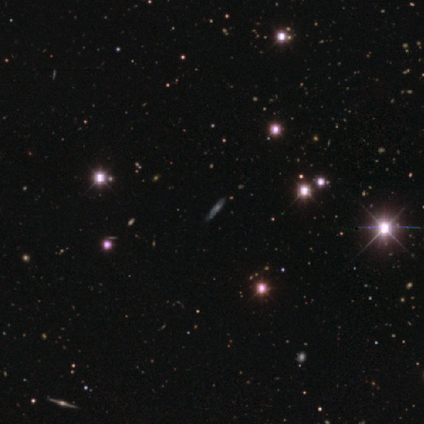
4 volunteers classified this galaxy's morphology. type=featured or disk (50%, tied with star or artifact); edge-on=yes (50%, tied with no); edge-on bulge=none (100%); merging=none (100%).